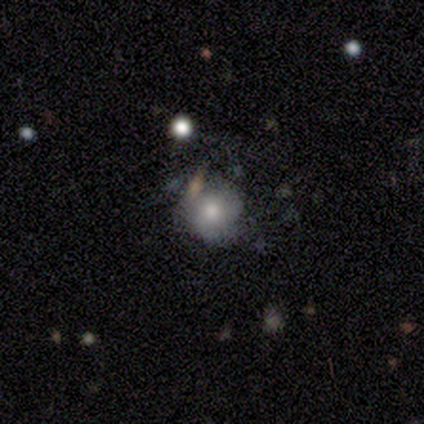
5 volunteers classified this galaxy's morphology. This is marginally a smooth galaxy (40%, tied with featured or disk). How rounded: clearly round (100%). Merging: possibly none (50%).